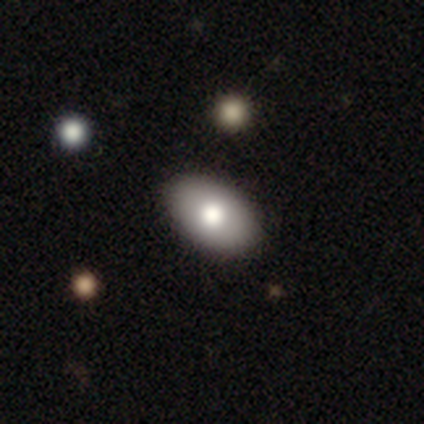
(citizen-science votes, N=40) A smooth galaxy with no disk features (85%) that is in between round and cigar-shaped (100%). Merging: none (92%).